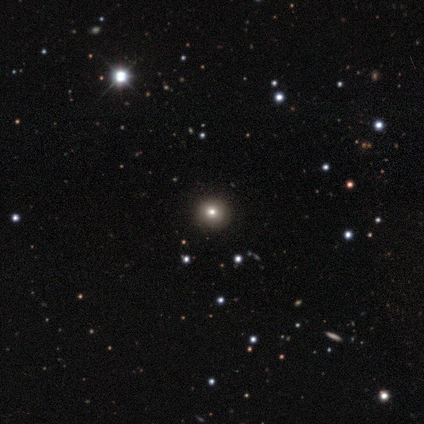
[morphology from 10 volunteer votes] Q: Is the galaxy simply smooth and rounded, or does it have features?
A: star or artifact — 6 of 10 (60%).